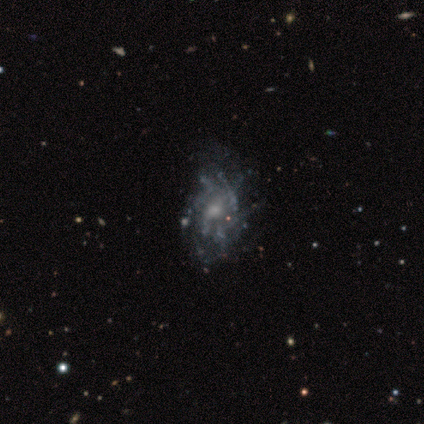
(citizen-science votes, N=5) smooth-or-featured: smooth: 40% (tied) | featured or disk: 40% (tied) | star or artifact: 20%
  how-rounded: round: 50% (tied) | in between: 50% (tied) | cigar-shaped: 0%
  merging: minor disturbance: 75% | none: 25% | major disturbance: 0% | merger: 0%